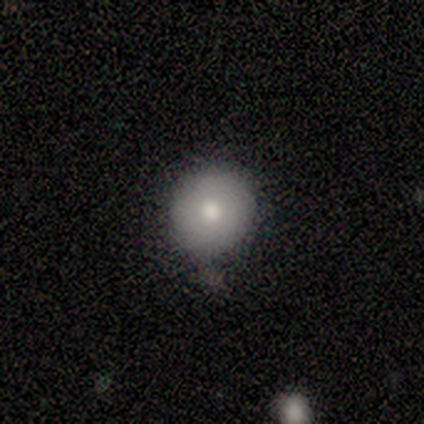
smooth-or-featured: smooth: 73% | featured or disk: 18% | star or artifact: 9%
  how-rounded: round: 88% | in between: 12% | cigar-shaped: 0%
  merging: none: 70% | minor disturbance: 30% | major disturbance: 0% | merger: 0%